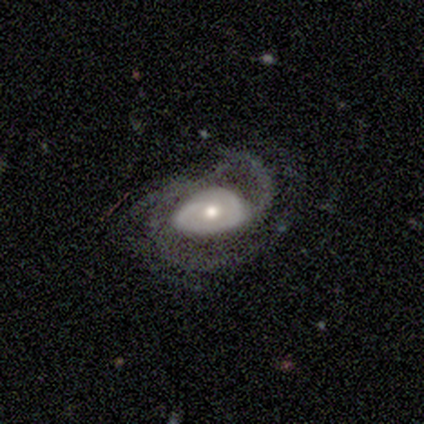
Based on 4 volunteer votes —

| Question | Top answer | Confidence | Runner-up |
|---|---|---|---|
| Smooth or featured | featured or disk | 75% | smooth (25%) |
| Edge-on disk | no | 100% | — |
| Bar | no | 67% | weak (33%) |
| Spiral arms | yes | 100% | — |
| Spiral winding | medium | 67% | loose (33%) |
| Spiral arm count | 1 | 33% | tied: 2 (33%), 3 (33%) |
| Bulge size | small | 67% | moderate (33%) |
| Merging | major disturbance | 50% | none (25%) |